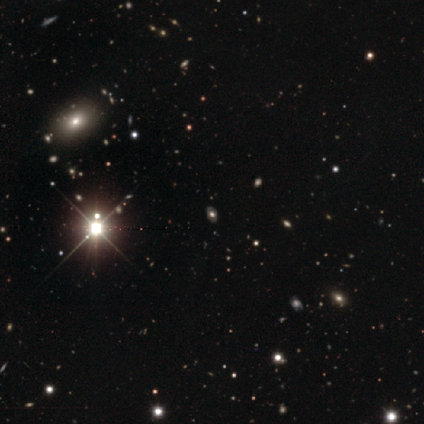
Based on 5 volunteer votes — Overall: smooth (40%, tied with featured or disk). How rounded: in between (100%). Merging: none (100%).